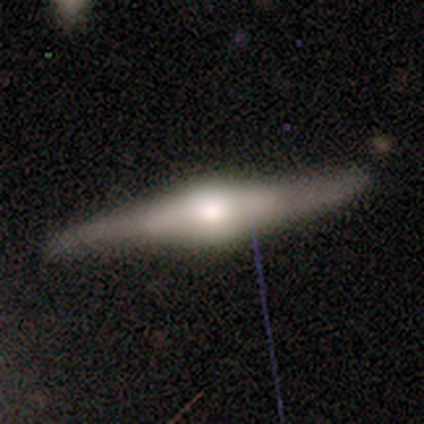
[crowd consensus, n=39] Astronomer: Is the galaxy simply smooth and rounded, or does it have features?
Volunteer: featured or disk — 82%.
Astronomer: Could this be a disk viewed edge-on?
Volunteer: yes — 91%.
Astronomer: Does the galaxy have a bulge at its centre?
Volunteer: rounded — 79%.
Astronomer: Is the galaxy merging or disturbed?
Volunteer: none — 46%.